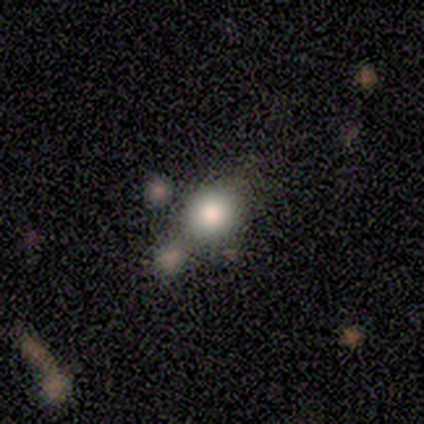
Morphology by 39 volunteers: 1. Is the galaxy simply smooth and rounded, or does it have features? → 79% smooth, 10% featured or disk, 10% star or artifact.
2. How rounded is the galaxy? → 77% round, 19% in between, 3% cigar-shaped.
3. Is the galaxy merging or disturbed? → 43% none, 20% merger, 17% minor disturbance, 0% major disturbance.